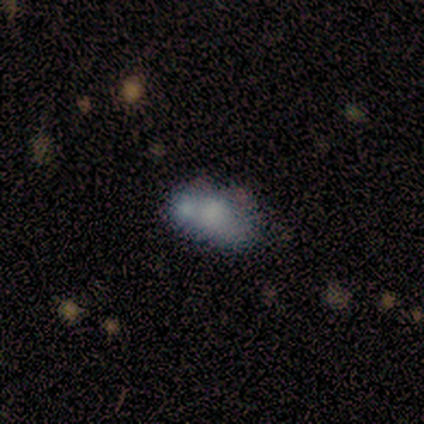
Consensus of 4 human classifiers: This is possibly a featured or disk galaxy (50%). It is clearly not viewed edge-on (100%). Bar: clearly no (100%). Spiral arm pattern: possibly yes (50%, tied with no). Spiral arm count: clearly 2 (100%). Spiral winding: clearly tight (100%). Central bulge: possibly moderate (50%, tied with none). Merging: marginally none (33%, tied with minor disturbance and merger).